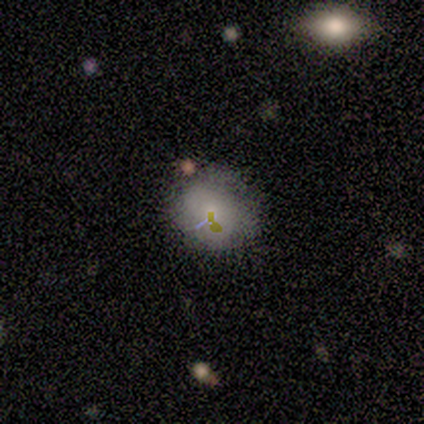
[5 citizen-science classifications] A smooth galaxy with no disk features (60%) that is round (100%). Merging: none (100%).